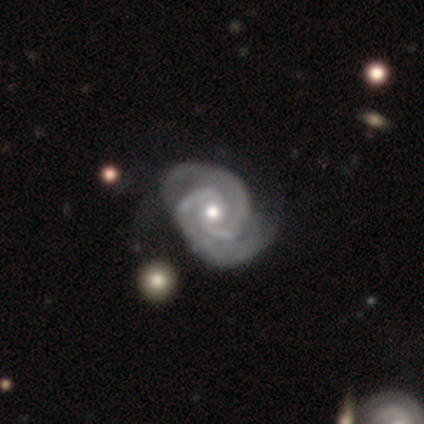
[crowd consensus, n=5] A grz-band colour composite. It shows a featured or disk galaxy (100%) with no bar (100%), 2 (100%) tight (80%) spiral arms (100%) and a small central bulge (80%). Merging: none (60%).